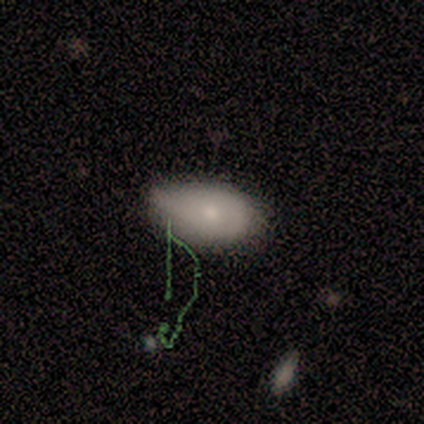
Overall: smooth (80%). How rounded: in between (75%). Merging: none (100%).